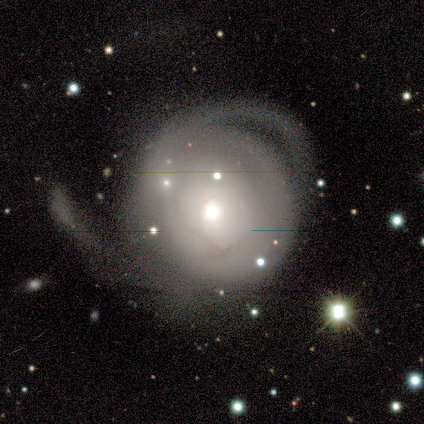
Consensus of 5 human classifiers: Q: Smooth or featured?
A: featured or disk (100%)
Q: Edge-on disk?
A: no (100%)
Q: Bar?
A: no (80%); runner-up: weak (20%)
Q: Spiral arms?
A: yes (60%); runner-up: no (40%)
Q: Spiral winding?
A: tight (33%); tied with: medium (33%); loose (33%)
Q: Spiral arm count?
A: 2 (100%)
Q: Bulge size?
A: small (60%); runner-up: moderate (40%)
Q: Merging?
A: minor disturbance (40%); tied with: major disturbance (40%)